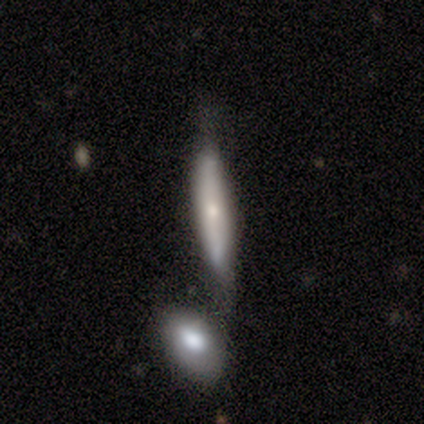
Smooth or featured?
  - smooth: 80% *
  - featured or disk: 20%
  - star or artifact: 0%
How rounded?
  - cigar-shaped: 75% *
  - in between: 25%
  - round: 0%
Merging?
  - minor disturbance: 60% *
  - none: 40%
  - major disturbance: 0%
  - merger: 0%